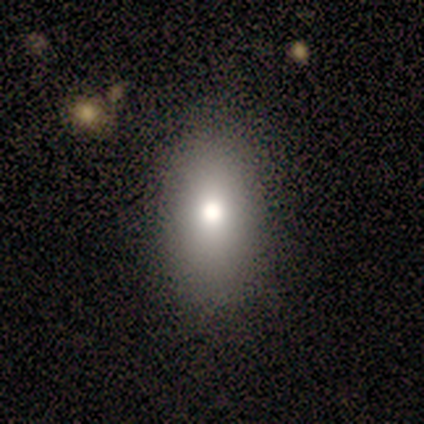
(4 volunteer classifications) smooth_or_featured: smooth (p=0.75) [alt: star or artifact p=0.25]
how_rounded: in between (p=1.00)
merging: none (p=0.33) [tied with: minor disturbance p=0.33, major disturbance p=0.33]